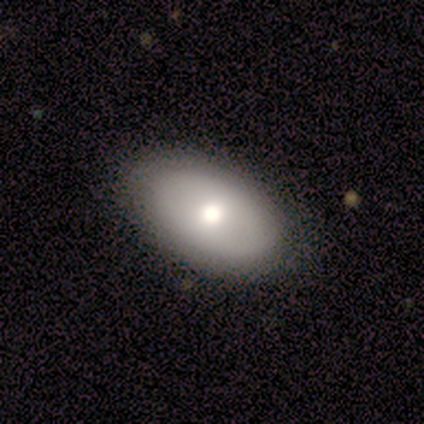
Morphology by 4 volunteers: A smooth galaxy with no disk features (50%, tied with featured or disk) that is in between round and cigar-shaped (100%).

Vote fractions:
- Smooth or featured? smooth: 50% (tied) / featured or disk: 50% (tied) / star or artifact: 0%
- How rounded? in between: 100% / round: 0% / cigar-shaped: 0%
- Merging? none: 100% / minor disturbance: 0% / major disturbance: 0% / merger: 0%